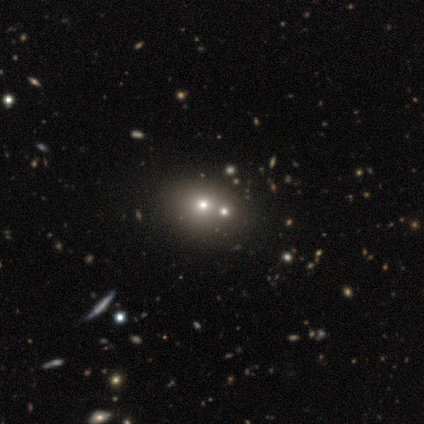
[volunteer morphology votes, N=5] Smooth or featured?
  - smooth: 80% *
  - star or artifact: 20%
  - featured or disk: 0%
How rounded?
  - round: 50% * (tied)
  - in between: 50% * (tied)
  - cigar-shaped: 0%
Merging?
  - none: 75% *
  - merger: 25%
  - minor disturbance: 0%
  - major disturbance: 0%